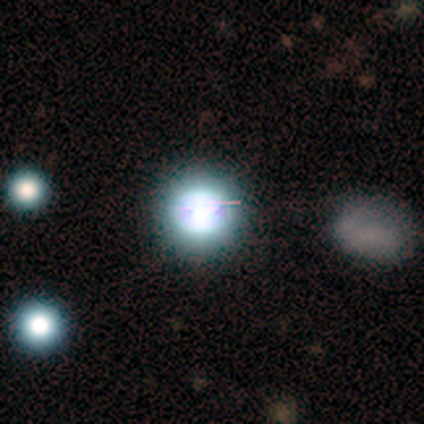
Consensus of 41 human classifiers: Smooth or featured?
  - star or artifact: 54% *
  - smooth: 37%
  - featured or disk: 10%